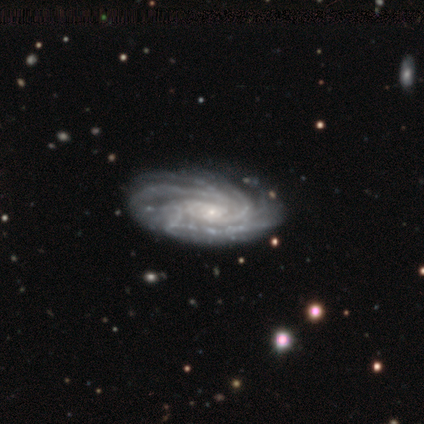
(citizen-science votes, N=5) A featured or disk galaxy (100%) with no bar (75%), more than 4 (75%) tight (75%) spiral arms (100%) and a small central bulge (100%).

Vote fractions:
- Smooth or featured? featured or disk: 100% / smooth: 0% / star or artifact: 0%
- Edge-on disk? no: 80% / yes: 20%
- Bar? no: 75% / weak: 25% / strong: 0%
- Spiral arms? yes: 100% / no: 0%
- Spiral winding? tight: 75% / medium: 25% / loose: 0%
- Spiral arm count? more than 4: 75% / can't tell: 25% / 1: 0% / 2: 0% / 3: 0% / 4: 0%
- Bulge size? small: 100% / dominant: 0% / large: 0% / moderate: 0% / none: 0%
- Merging? none: 80% / major disturbance: 20% / minor disturbance: 0% / merger: 0%